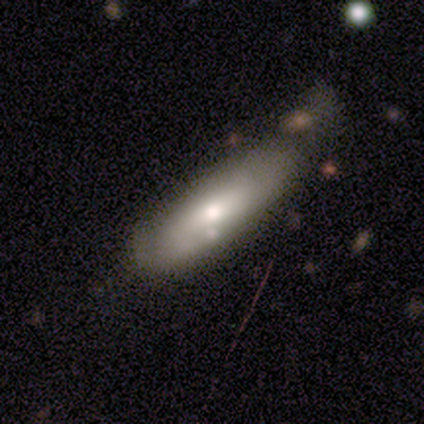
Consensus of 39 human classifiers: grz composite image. It shows a smooth galaxy with no disk features (64%) that is in between round and cigar-shaped (52%). Merging: none (33%).